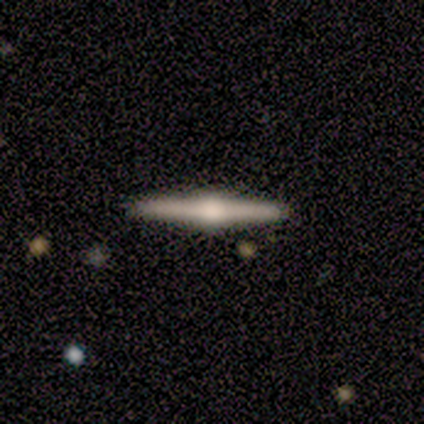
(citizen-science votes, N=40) Smooth or featured? 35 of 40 (88%) said featured or disk. Edge-on disk? 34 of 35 (97%) said yes. Edge-on bulge? 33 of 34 (97%) said rounded. Merging? 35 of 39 (90%) said none.